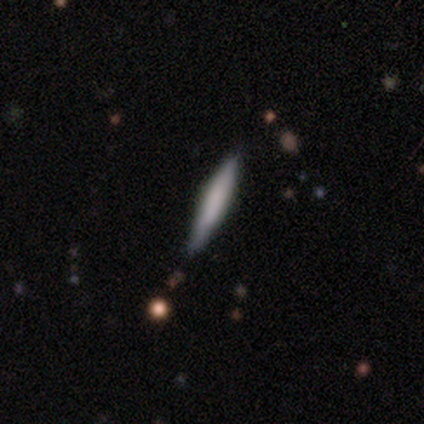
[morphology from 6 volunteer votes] A featured or disk galaxy (50%) viewed edge-on (100%) with no central bulge (67%). Merging: none (60%).